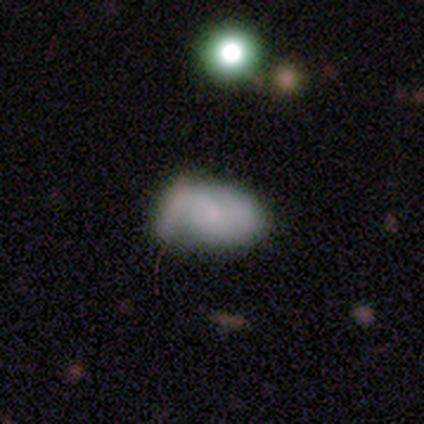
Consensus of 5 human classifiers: Volunteers were most divided on "bar": no: 67%, weak: 33%, strong: 0%. More confident: edge-on disk — no (100%); merging — none (75%); spiral arms — no (67%); bulge size — small (67%); smooth or featured — featured or disk (60%).